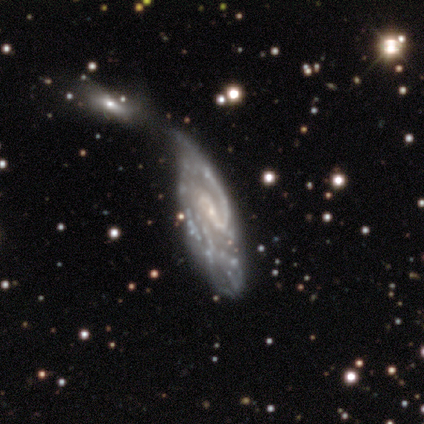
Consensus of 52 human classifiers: Smooth or featured? 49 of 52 (94%) said featured or disk. Edge-on disk? 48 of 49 (98%) said no. Bar? 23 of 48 (48%) said weak. Spiral arms? 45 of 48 (94%) said yes. Spiral winding? 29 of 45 (64%) said medium. Spiral arm count? 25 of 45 (56%) said 2. Bulge size? 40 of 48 (83%) said small. Merging? 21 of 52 (40%) said merger.